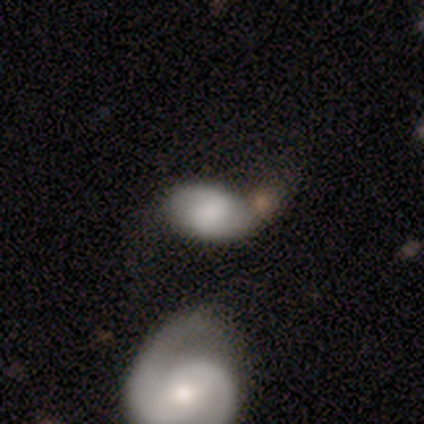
This is likely a smooth galaxy (60%). How rounded: likely in between (67%). Merging: marginally minor disturbance (40%, tied with merger).